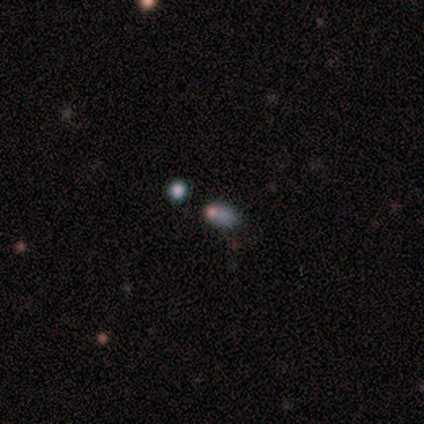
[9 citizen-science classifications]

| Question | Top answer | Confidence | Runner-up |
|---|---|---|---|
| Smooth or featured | smooth | 56% | star or artifact (33%) |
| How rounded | round | 40% | tied: in between (40%) |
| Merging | none | 67% | minor disturbance (17%) |